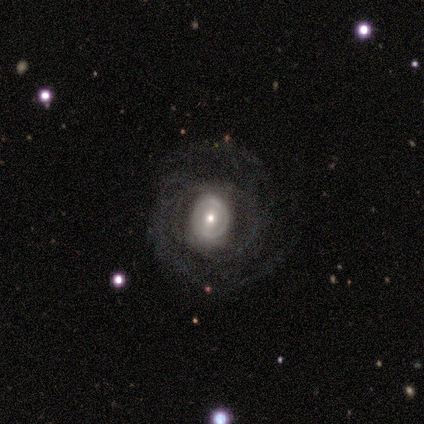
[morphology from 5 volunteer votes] Q: Smooth or featured?
A: featured or disk (100%)
Q: Edge-on disk?
A: no (100%)
Q: Bar?
A: weak (40%); tied with: no (40%)
Q: Spiral arms?
A: yes (100%)
Q: Spiral winding?
A: tight (60%); runner-up: medium (20%)
Q: Spiral arm count?
A: 2 (60%); runner-up: 4 (20%)
Q: Bulge size?
A: moderate (60%); runner-up: large (20%)
Q: Merging?
A: none (60%); runner-up: major disturbance (40%)